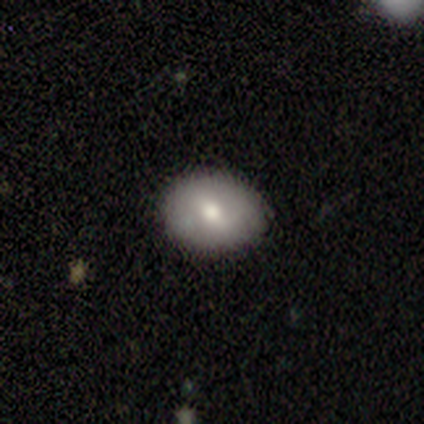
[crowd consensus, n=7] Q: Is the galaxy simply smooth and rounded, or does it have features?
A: smooth — 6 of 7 (86%).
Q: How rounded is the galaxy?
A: round — 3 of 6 (50%, tied with in between).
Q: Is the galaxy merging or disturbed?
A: none — 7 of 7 (100%).